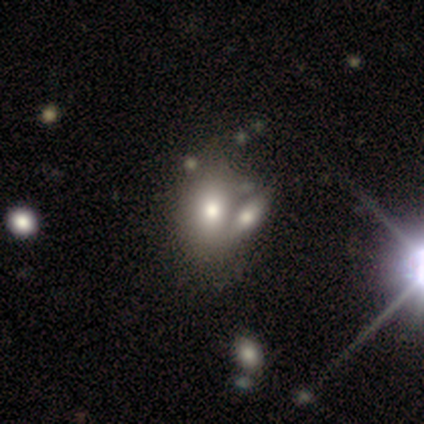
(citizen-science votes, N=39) Smooth or featured? 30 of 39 (77%) said smooth. How rounded? 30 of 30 (100%) said in between. Merging? 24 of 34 (71%) said merger.